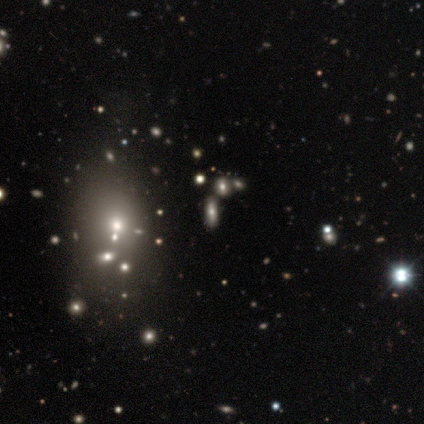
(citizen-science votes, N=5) This is likely a smooth galaxy (60%). How rounded: likely in between (67%). Merging: likely none (75%).